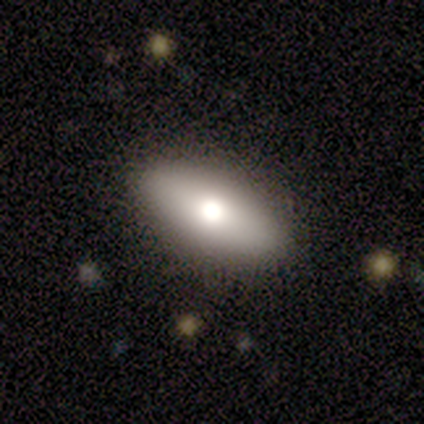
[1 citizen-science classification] Consensus on every question: smooth or featured — featured or disk (100%); edge-on disk — no (100%); bar — no (100%); spiral arms — no (100%); bulge size — moderate (100%); merging — none (100%).